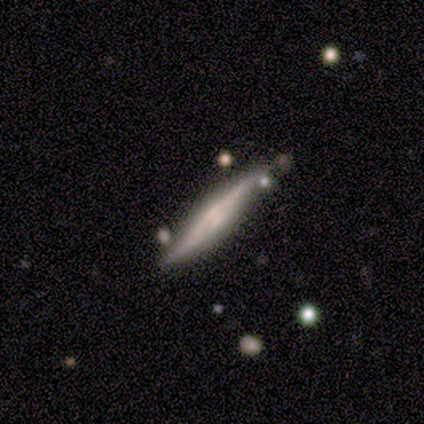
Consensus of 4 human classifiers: Smooth or featured: featured or disk — 75% (smooth — 25%)
Edge-on disk: yes — 100%
Edge-on bulge: rounded — 100%
Merging: none — 100%